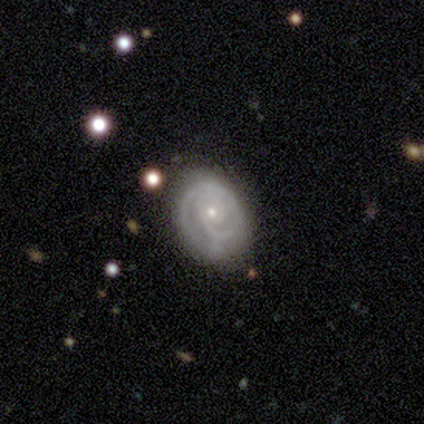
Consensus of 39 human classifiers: Smooth or featured? 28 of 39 (72%) said featured or disk. Edge-on disk? 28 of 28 (100%) said no. Bar? 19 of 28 (68%) said no. Spiral arms? 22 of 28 (79%) said yes. Spiral winding? 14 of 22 (64%) said tight. Spiral arm count? 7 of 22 (32%) said can't tell. Bulge size? 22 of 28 (79%) said small. Merging? 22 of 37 (59%) said none.